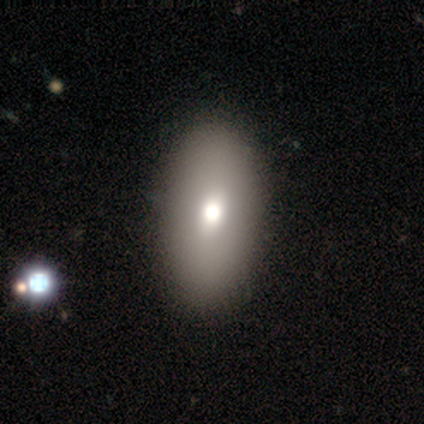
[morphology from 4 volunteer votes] Smooth or featured? 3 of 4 (75%) said smooth. How rounded? 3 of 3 (100%) said in between. Merging? 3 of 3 (100%) said none.